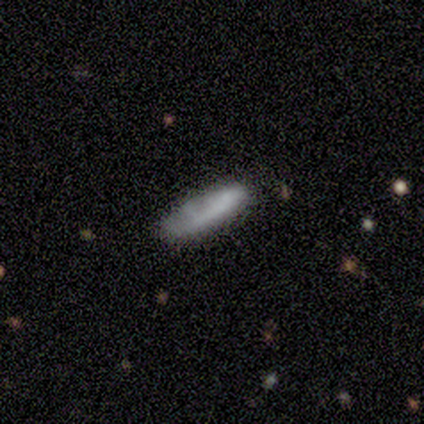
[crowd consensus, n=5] smooth-or-featured: smooth: 80% | featured or disk: 20% | star or artifact: 0%
  how-rounded: in between: 50% (tied) | cigar-shaped: 50% (tied) | round: 0%
  merging: none: 40% (tied) | major disturbance: 40% (tied) | minor disturbance: 20% | merger: 0%